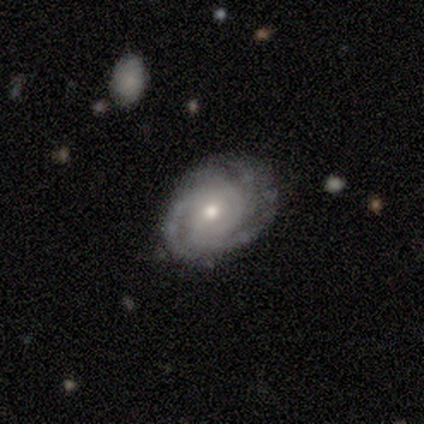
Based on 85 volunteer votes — smooth-or-featured: featured or disk: 85% | smooth: 9% | star or artifact: 6%
  disk-edge-on: no: 96% | yes: 4%
    bar: no: 67% | weak: 29% | strong: 4%
    has-spiral-arms: yes: 97% | no: 3%
      spiral-winding: tight: 69% | medium: 28% | loose: 3%
      spiral-arm-count: 3: 42% | can't tell: 19% | more than 4: 15% | 4: 13% | 2: 10% | 1: 0%
    bulge-size: moderate: 54% | small: 45% | dominant: 1% | large: 0% | none: 0%
  merging: none: 72% | minor disturbance: 21% | major disturbance: 5% | merger: 1%